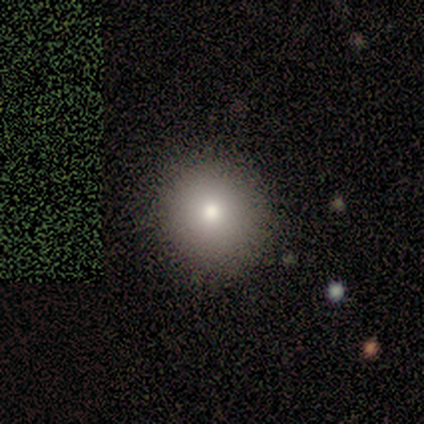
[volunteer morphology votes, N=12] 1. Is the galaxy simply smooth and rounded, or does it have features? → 83% smooth, 8% featured or disk, 8% star or artifact.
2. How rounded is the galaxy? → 100% round, 0% in between, 0% cigar-shaped.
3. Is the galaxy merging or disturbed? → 100% none, 0% minor disturbance, 0% major disturbance, 0% merger.